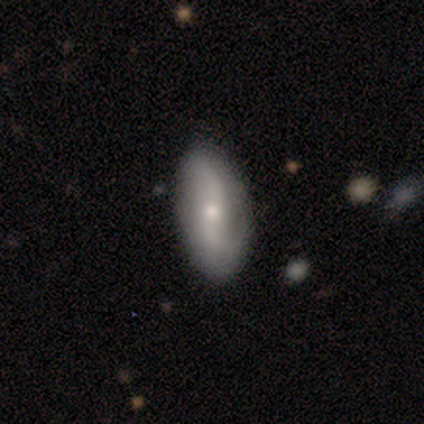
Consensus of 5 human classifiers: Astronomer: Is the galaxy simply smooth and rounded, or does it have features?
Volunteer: featured or disk — 100%.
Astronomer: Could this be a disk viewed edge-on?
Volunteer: no — 100%.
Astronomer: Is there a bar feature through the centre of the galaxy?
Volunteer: weak — 60% (runner-up: no, 40%).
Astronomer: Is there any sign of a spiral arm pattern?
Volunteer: yes — 100%.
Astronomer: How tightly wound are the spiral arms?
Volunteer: loose — 100%.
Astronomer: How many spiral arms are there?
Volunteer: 2 — 80%.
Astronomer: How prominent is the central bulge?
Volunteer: small — 60% (runner-up: moderate, 40%).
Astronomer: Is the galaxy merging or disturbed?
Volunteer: none — 60% (runner-up: minor disturbance, 40%).